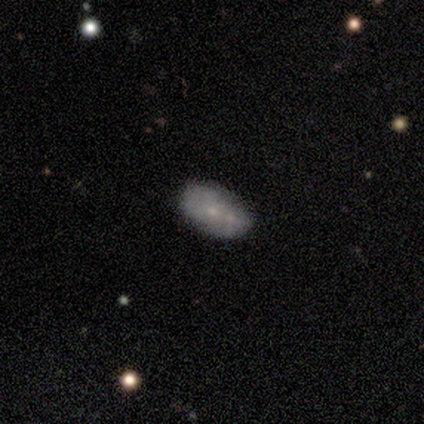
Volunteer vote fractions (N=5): smooth_or_featured: smooth (p=0.60) [alt: featured or disk p=0.40]
how_rounded: in between (p=1.00)
merging: none (p=0.40) [tied with: merger p=0.40]